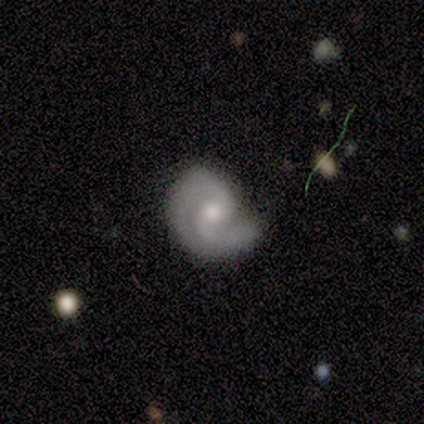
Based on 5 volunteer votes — Smooth or featured? 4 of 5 (80%) said featured or disk. Edge-on disk? 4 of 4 (100%) said no. Bar? 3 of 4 (75%) said no. Spiral arms? 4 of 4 (100%) said yes. Spiral winding? 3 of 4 (75%) said tight. Spiral arm count? 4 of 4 (100%) said 2. Bulge size? 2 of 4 (50%) said moderate. Merging? 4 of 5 (80%) said none.